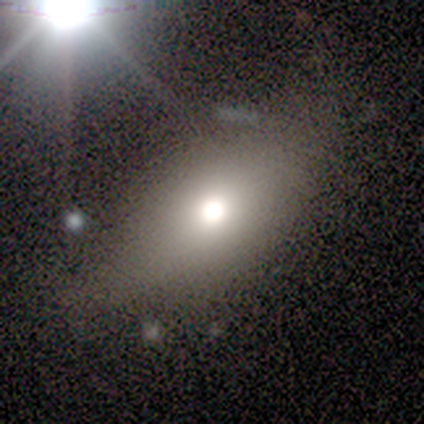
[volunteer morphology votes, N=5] Volunteers were most divided on "smooth or featured": smooth: 60%, featured or disk: 40%, star or artifact: 0%. More confident: merging — none (80%); how rounded — in between (67%).